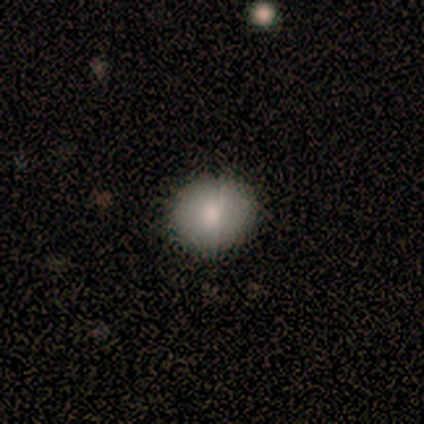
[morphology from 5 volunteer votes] Volunteers were most divided on "how rounded": round: 75%, in between: 25%, cigar-shaped: 0%. More confident: merging — none (100%); smooth or featured — smooth (80%).